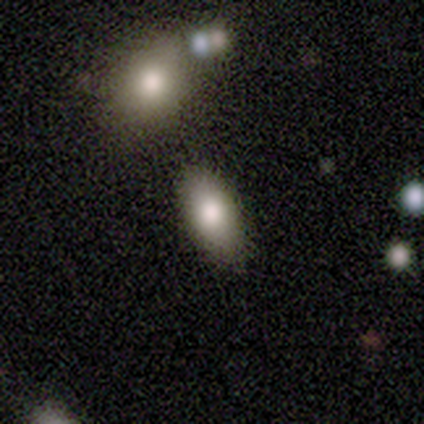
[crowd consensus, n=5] Smooth or featured: smooth — 80% (featured or disk — 20%)
How rounded: in between — 75% (cigar-shaped — 25%)
Merging: none — 80% (minor disturbance — 20%)